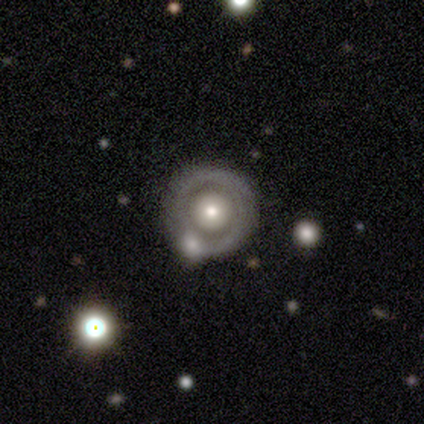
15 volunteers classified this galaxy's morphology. A featured or disk galaxy (67%) with no bar (100%), no spiral arms (78%) and a moderate central bulge (78%).

Vote fractions:
- Smooth or featured? featured or disk: 67% / smooth: 33% / star or artifact: 0%
- Edge-on disk? no: 90% / yes: 10%
- Bar? no: 100% / strong: 0% / weak: 0%
- Spiral arms? no: 78% / yes: 22%
- Bulge size? moderate: 78% / small: 22% / dominant: 0% / large: 0% / none: 0%
- Merging? none: 67% / merger: 20% / minor disturbance: 13% / major disturbance: 0%